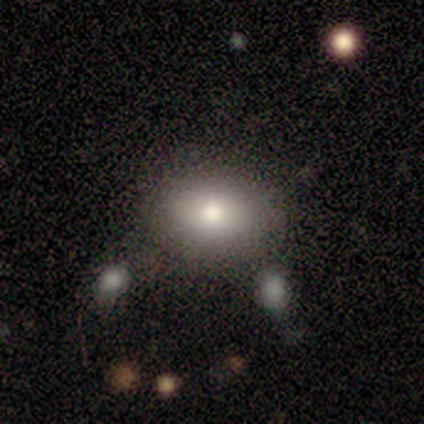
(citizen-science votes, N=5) This is likely a smooth galaxy (60%). How rounded: clearly in between (100%). Merging: possibly none (50%).